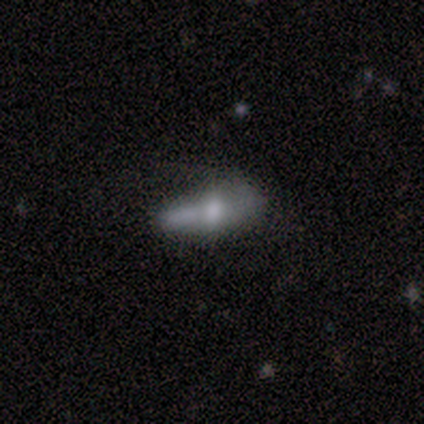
Q: Smooth or featured?
A: smooth (60%); runner-up: featured or disk (20%)
Q: How rounded?
A: in between (100%)
Q: Merging?
A: none (50%); runner-up: minor disturbance (25%)